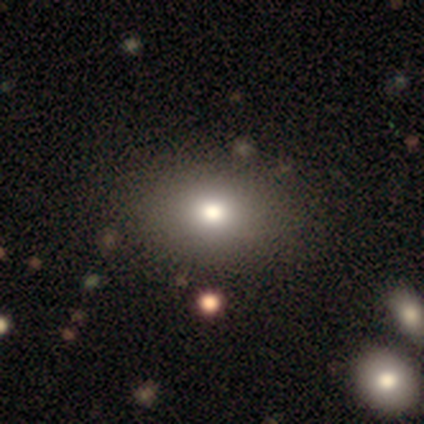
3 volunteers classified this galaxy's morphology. Overall: smooth (67%; star or artifact 33%). How rounded: round (50%, tied with in between). Merging: none (100%).